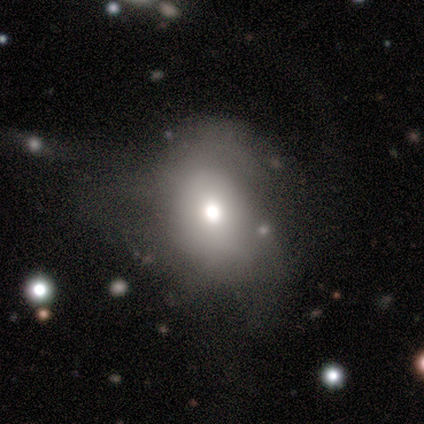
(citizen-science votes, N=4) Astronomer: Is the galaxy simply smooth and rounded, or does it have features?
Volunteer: smooth — 50%, tied with featured or disk at 50%.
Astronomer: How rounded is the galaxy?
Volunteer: round — 50%, tied with in between at 50%.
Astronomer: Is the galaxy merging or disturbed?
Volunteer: minor disturbance — 50%.